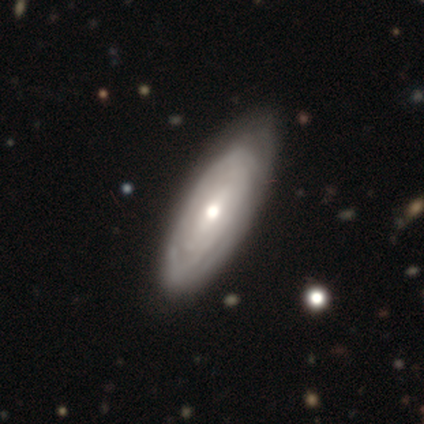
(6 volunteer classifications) Smooth or featured?
  - featured or disk: 67% *
  - smooth: 33%
  - star or artifact: 0%
Edge-on disk?
  - no: 100% *
  - yes: 0%
Bar?
  - no: 100% *
  - strong: 0%
  - weak: 0%
Spiral arms?
  - yes: 100% *
  - no: 0%
Spiral winding?
  - tight: 75% *
  - medium: 25%
  - loose: 0%
Spiral arm count?
  - can't tell: 50% *
  - 2: 25%
  - 4: 25%
  - 1: 0%
  - 3: 0%
  - more than 4: 0%
Bulge size?
  - moderate: 75% *
  - small: 25%
  - dominant: 0%
  - large: 0%
  - none: 0%
Merging?
  - none: 83% *
  - merger: 17%
  - minor disturbance: 0%
  - major disturbance: 0%